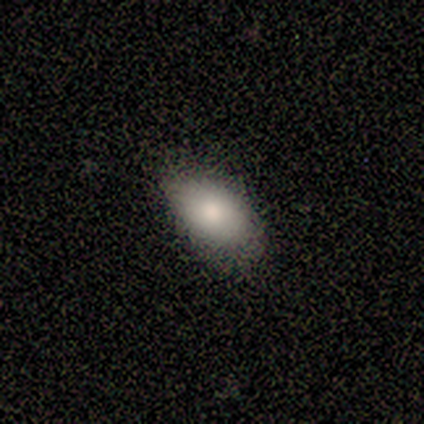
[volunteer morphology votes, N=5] This is clearly a smooth galaxy (80%). How rounded: clearly in between (100%). Merging: likely none (60%).